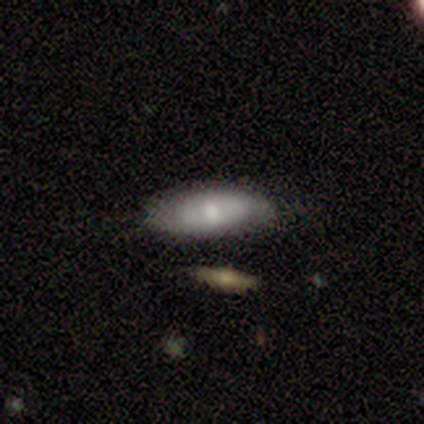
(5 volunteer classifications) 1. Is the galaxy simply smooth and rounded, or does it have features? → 60% featured or disk, 40% smooth, 0% star or artifact.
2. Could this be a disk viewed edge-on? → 100% no, 0% yes.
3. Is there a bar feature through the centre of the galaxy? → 100% no, 0% strong, 0% weak.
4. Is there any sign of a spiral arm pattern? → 67% no, 33% yes.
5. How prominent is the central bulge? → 67% small, 33% moderate, 0% dominant, 0% large, 0% none.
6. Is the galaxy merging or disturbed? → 60% none, 20% major disturbance, 20% merger, 0% minor disturbance.